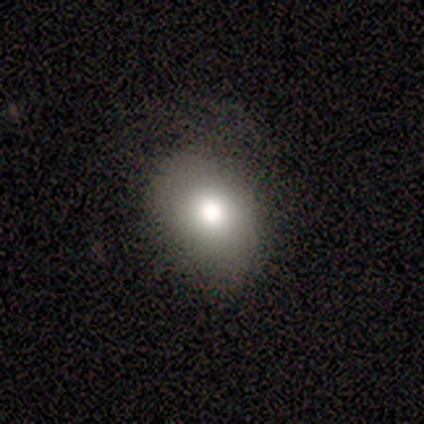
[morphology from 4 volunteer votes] Smooth or featured? smooth (100%)
How rounded? in between (75%)
Merging? none (50%, tied with minor disturbance)